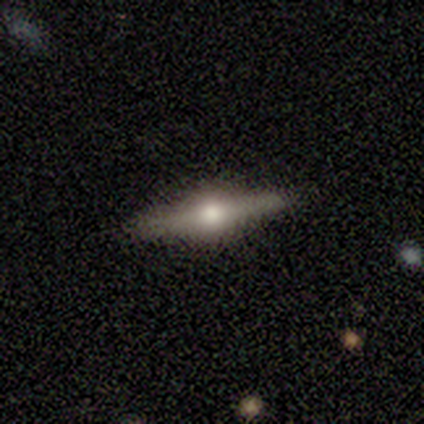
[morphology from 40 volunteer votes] Smooth or featured? 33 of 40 (82%) said featured or disk. Edge-on disk? 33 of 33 (100%) said yes. Edge-on bulge? 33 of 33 (100%) said rounded. Merging? 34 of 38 (89%) said none.